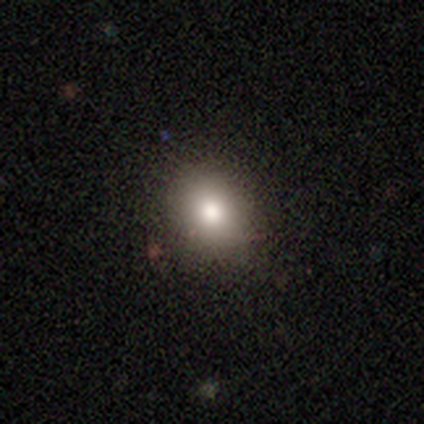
Smooth or featured?
  - smooth: 62% *
  - star or artifact: 25%
  - featured or disk: 12%
How rounded?
  - round: 80% *
  - in between: 20%
  - cigar-shaped: 0%
Merging?
  - none: 83% *
  - merger: 17%
  - minor disturbance: 0%
  - major disturbance: 0%